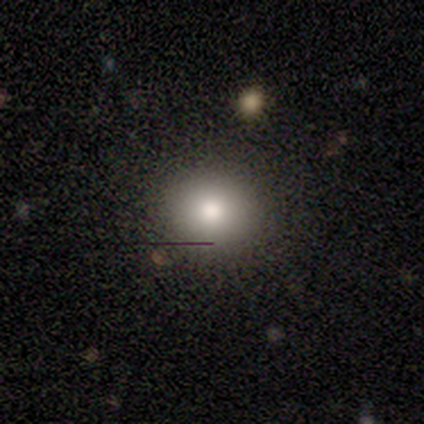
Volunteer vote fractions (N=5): Smooth or featured? smooth (100%)
How rounded? round (60%)
Merging? none (60%)